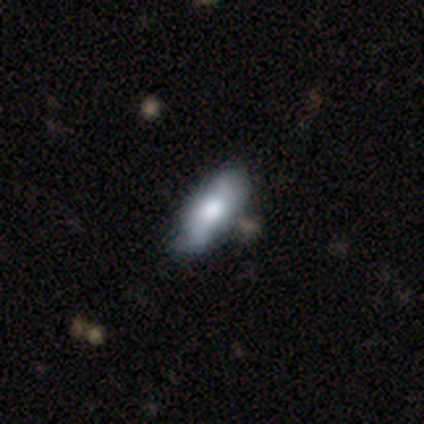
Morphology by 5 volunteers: Volunteers were most divided on "merging" (2-way tie): none: 40%, minor disturbance: 40%, merger: 20%, major disturbance: 0%. More confident: edge-on disk — no (100%); bar — no (100%); spiral arms — no (67%); bulge size — large (67%); smooth or featured — featured or disk (60%).